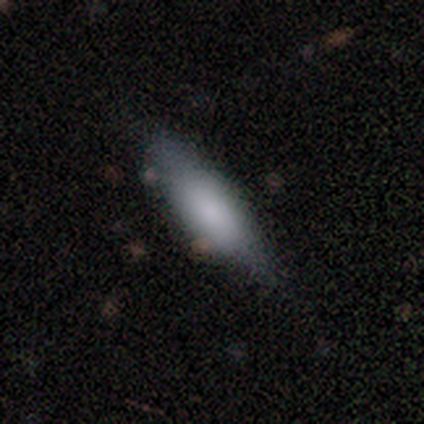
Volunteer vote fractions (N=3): Smooth or featured? smooth (67%)
How rounded? cigar-shaped (100%)
Merging? none (67%)